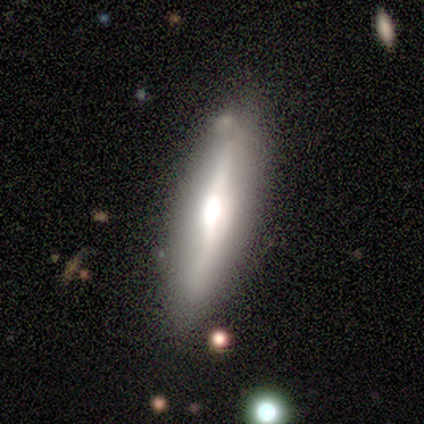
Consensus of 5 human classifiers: Overall: featured or disk (80%). Edge-on disk: yes (75%). Edge-on bulge: rounded (67%; none 33%). Merging: none (80%).